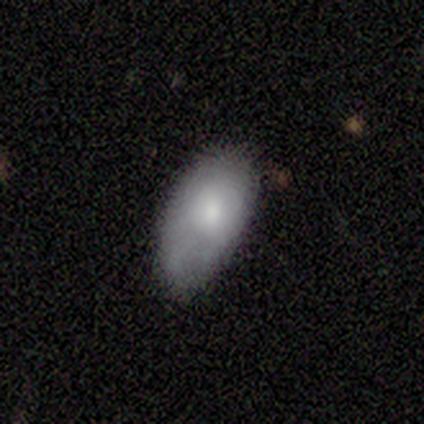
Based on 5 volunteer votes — A smooth galaxy with no disk features (100%) that is in between round and cigar-shaped (100%). Merging: none (60%).